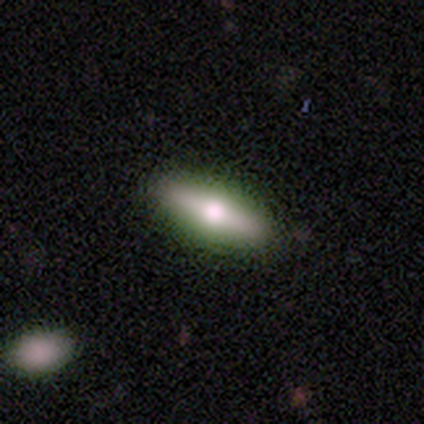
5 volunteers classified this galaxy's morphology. Smooth or featured?
  - smooth: 60% *
  - featured or disk: 40%
  - star or artifact: 0%
How rounded?
  - cigar-shaped: 100% *
  - round: 0%
  - in between: 0%
Merging?
  - none: 100% *
  - minor disturbance: 0%
  - major disturbance: 0%
  - merger: 0%